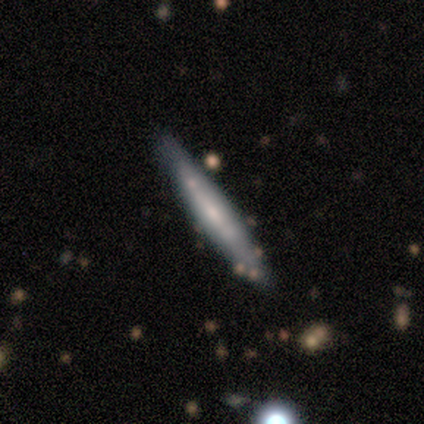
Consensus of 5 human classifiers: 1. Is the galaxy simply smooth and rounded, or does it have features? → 60% featured or disk, 40% smooth, 0% star or artifact.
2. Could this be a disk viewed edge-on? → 100% yes, 0% no.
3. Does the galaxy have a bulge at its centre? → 67% none, 33% rounded, 0% boxy.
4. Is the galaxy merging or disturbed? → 80% none, 20% minor disturbance, 0% major disturbance, 0% merger.